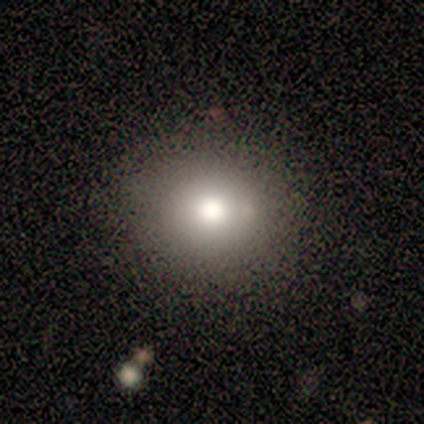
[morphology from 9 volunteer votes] Volunteers were most divided on "smooth or featured": smooth: 56%, star or artifact: 33%, featured or disk: 11%. More confident: merging — none (83%); how rounded — round (80%).